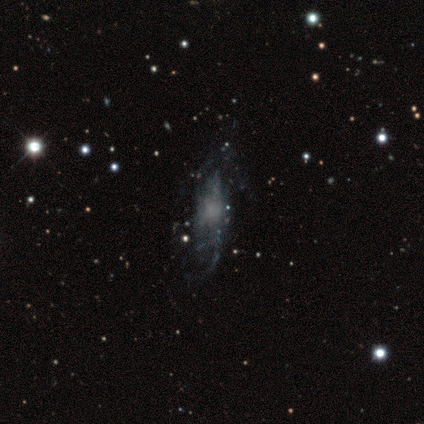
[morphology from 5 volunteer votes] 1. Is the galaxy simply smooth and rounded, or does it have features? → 40% smooth (tied), 40% featured or disk (tied), 20% star or artifact.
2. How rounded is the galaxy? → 100% cigar-shaped, 0% round, 0% in between.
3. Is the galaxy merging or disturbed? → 75% none, 25% merger, 0% minor disturbance, 0% major disturbance.